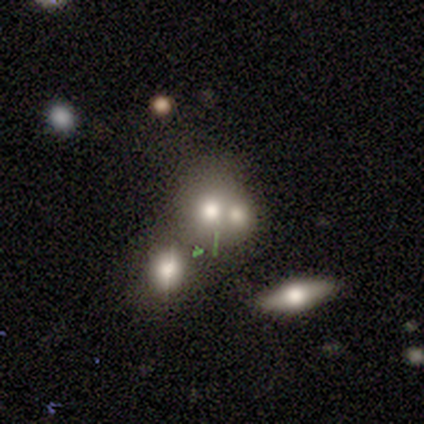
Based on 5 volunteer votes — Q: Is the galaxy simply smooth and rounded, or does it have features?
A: smooth — 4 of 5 (80%).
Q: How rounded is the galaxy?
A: round — 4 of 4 (100%).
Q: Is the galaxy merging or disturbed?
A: merger — 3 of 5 (60%).